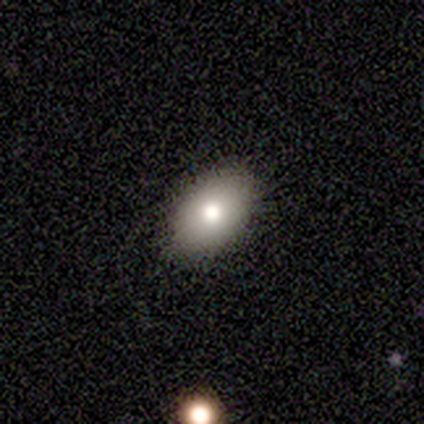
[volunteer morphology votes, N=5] Smooth or featured?
  - smooth: 80% *
  - featured or disk: 20%
  - star or artifact: 0%
How rounded?
  - in between: 75% *
  - round: 25%
  - cigar-shaped: 0%
Merging?
  - none: 100% *
  - minor disturbance: 0%
  - major disturbance: 0%
  - merger: 0%